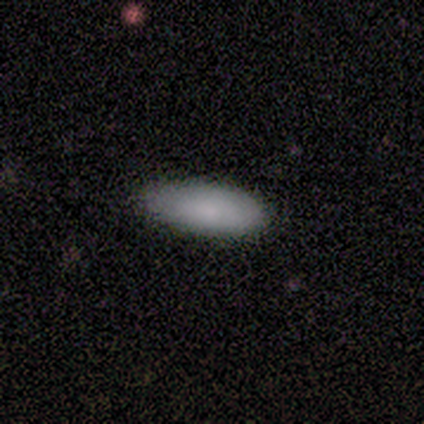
Morphology: type=smooth (80%); roundness=in between (100%); merging=none (75%).